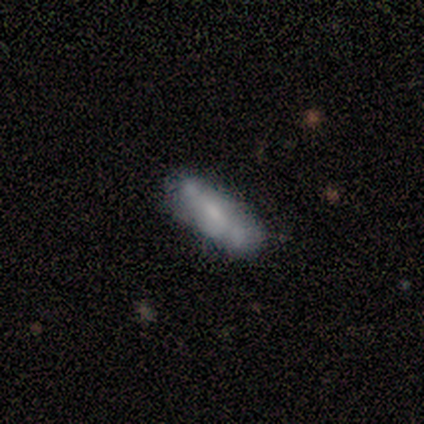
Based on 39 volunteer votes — smooth 51%, featured or disk 44%, star or artifact 5%. Down the decision tree: how rounded — cigar-shaped (65%); merging — none (57%).